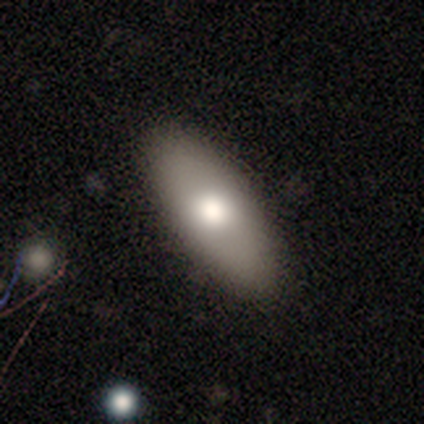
A smooth galaxy with no disk features (62%) that is in between round and cigar-shaped (83%). Merging: none (89%).